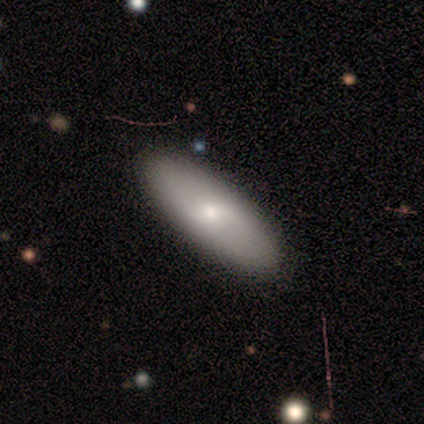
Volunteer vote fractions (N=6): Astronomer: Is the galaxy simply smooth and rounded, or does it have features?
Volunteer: smooth — 100%.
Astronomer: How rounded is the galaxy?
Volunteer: in between — 83%.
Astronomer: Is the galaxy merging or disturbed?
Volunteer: none — 83%.